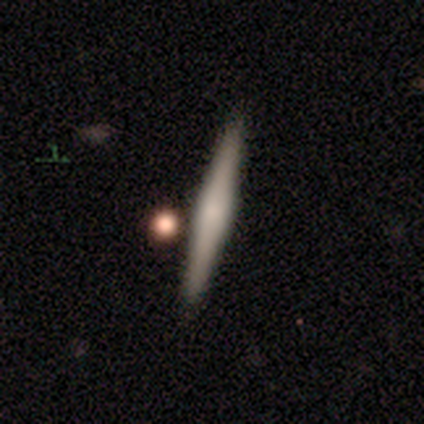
Overall: featured or disk (60%; smooth 38%). Edge-on disk: yes (92%). Edge-on bulge: rounded (55%; none 27%). Merging: none (41%; merger 15%).